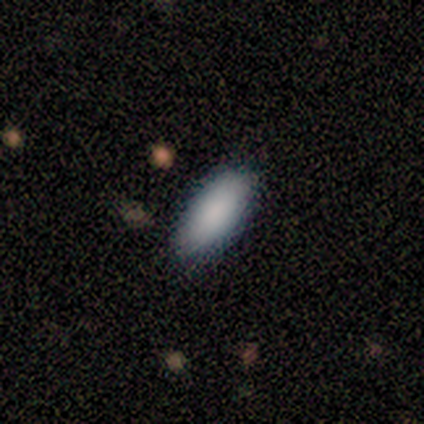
Smooth or featured: smooth — 100%
How rounded: in between — 80% (cigar-shaped — 20%)
Merging: none — 100%